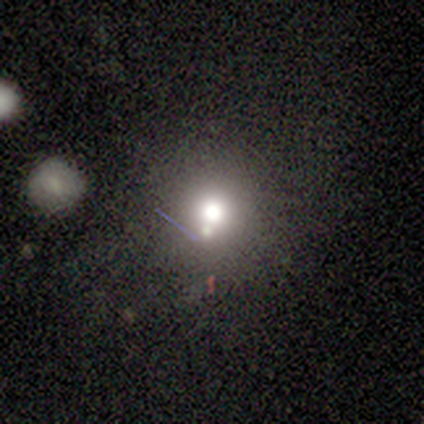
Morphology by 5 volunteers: Smooth or featured: star or artifact — 60% (smooth — 40%)